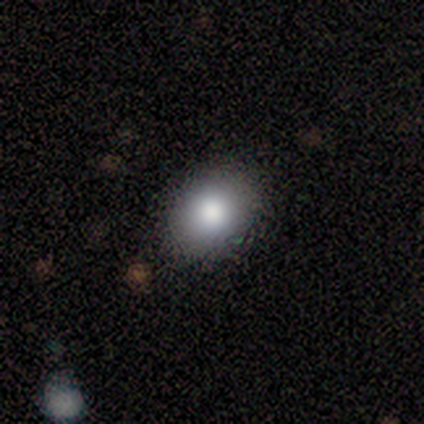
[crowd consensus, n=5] Smooth or featured?
  - smooth: 100% *
  - featured or disk: 0%
  - star or artifact: 0%
How rounded?
  - in between: 60% *
  - round: 40%
  - cigar-shaped: 0%
Merging?
  - none: 100% *
  - minor disturbance: 0%
  - major disturbance: 0%
  - merger: 0%